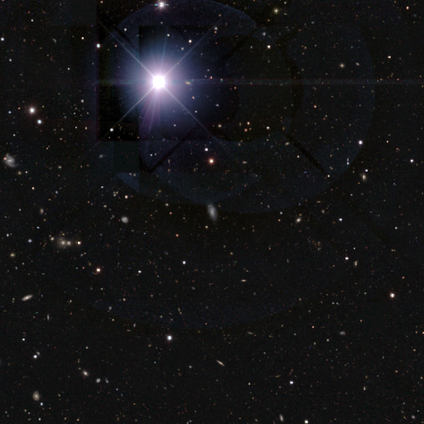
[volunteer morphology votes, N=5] Smooth or featured: star or artifact — 100%